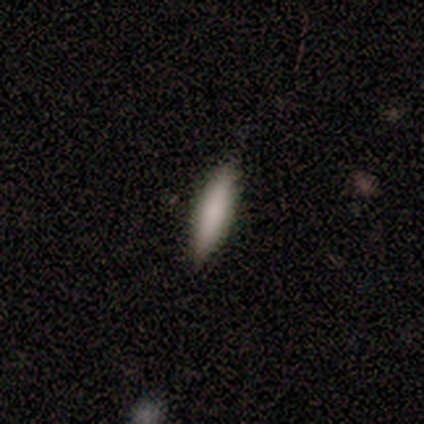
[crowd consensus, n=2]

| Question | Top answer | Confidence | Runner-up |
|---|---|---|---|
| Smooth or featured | smooth | 100% | — |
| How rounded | in between | 50% | tied: cigar-shaped (50%) |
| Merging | none | 50% | tied: major disturbance (50%) |